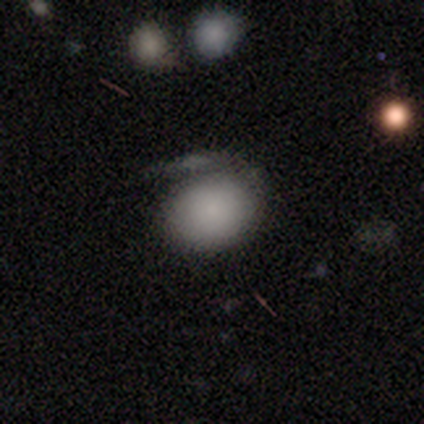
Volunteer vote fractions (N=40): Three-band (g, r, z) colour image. It shows a smooth galaxy with no disk features (78%) that is in between round and cigar-shaped (61%). Merging: minor disturbance (34%).